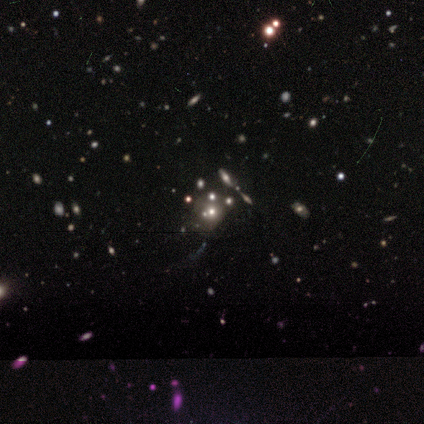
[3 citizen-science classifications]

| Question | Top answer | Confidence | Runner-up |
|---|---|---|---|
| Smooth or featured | smooth | 67% | star or artifact (33%) |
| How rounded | round | 100% | — |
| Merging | none | 100% | — |